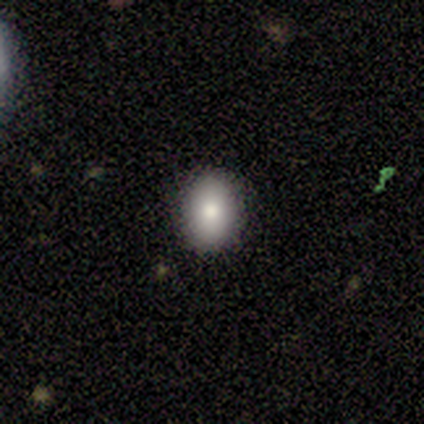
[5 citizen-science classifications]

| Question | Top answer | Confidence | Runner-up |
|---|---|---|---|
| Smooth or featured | smooth | 60% | featured or disk (20%) |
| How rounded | round | 67% | in between (33%) |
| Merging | none | 75% | minor disturbance (25%) |